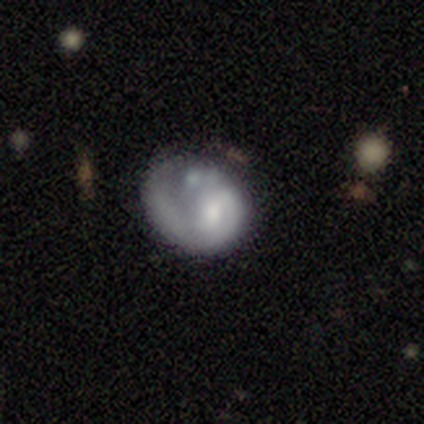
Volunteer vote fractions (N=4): smooth-or-featured: featured or disk: 75% | smooth: 25% | star or artifact: 0%
  disk-edge-on: no: 100% | yes: 0%
    bar: no: 67% | strong: 33% | weak: 0%
    has-spiral-arms: yes: 100% | no: 0%
      spiral-winding: loose: 67% | tight: 33% | medium: 0%
      spiral-arm-count: 1: 100% | 2: 0% | 3: 0% | 4: 0% | more than 4: 0% | can't tell: 0%
    bulge-size: small: 67% | moderate: 33% | dominant: 0% | large: 0% | none: 0%
  merging: none: 50% | minor disturbance: 25% | major disturbance: 25% | merger: 0%